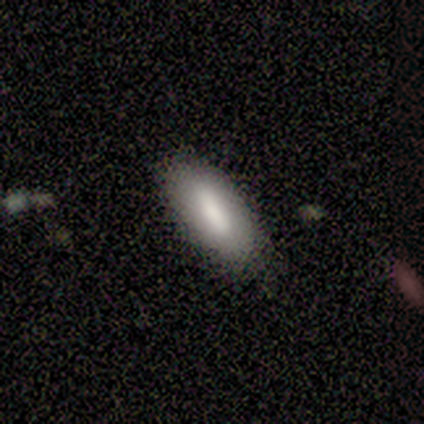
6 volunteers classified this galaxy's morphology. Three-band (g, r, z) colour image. It shows a smooth galaxy with no disk features (50%, tied with featured or disk) that is in between round and cigar-shaped (100%). Merging: none (100%).